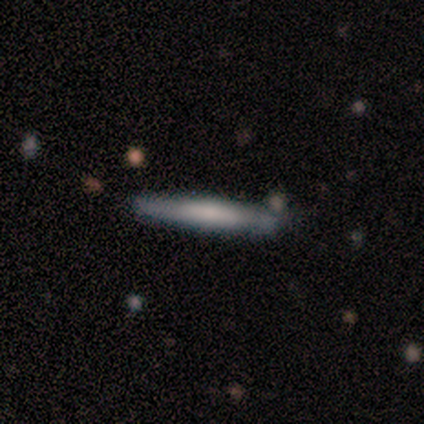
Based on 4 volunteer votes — Morphology: type=smooth (50%, tied with featured or disk); roundness=cigar-shaped (100%); merging=none (100%).